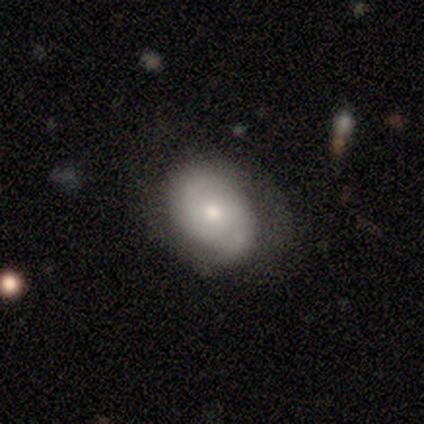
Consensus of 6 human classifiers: smooth 50% (tied), featured or disk 50% (tied), star or artifact 0%. Down the decision tree: how rounded — in between (67%); merging — none (67%).